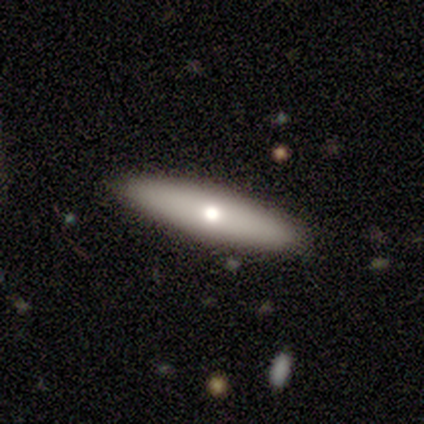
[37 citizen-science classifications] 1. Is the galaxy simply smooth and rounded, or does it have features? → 57% smooth, 41% featured or disk, 3% star or artifact.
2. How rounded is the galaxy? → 86% cigar-shaped, 14% in between, 0% round.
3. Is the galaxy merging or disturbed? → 92% none, 8% minor disturbance, 0% major disturbance, 0% merger.